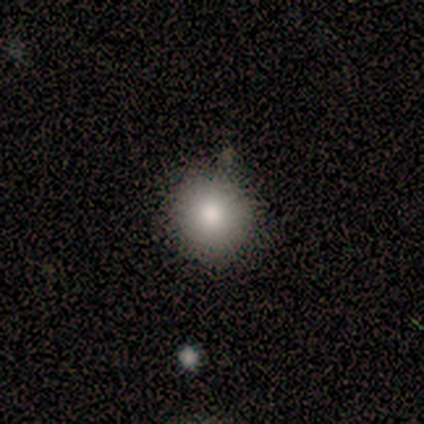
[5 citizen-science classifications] Volunteers were most divided on "smooth or featured": smooth: 60%, featured or disk: 40%, star or artifact: 0%. More confident: how rounded — round (67%); merging — none (60%).